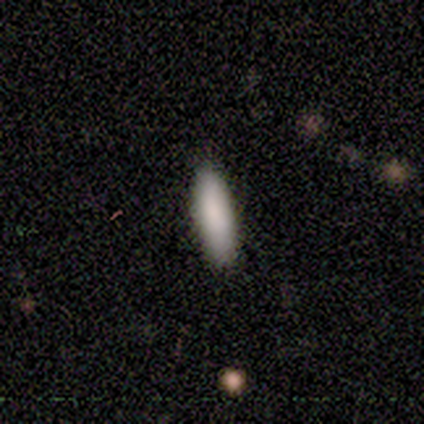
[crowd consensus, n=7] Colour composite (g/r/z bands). It shows a smooth galaxy with no disk features (100%) that is cigar-shaped (57%). Merging: none (100%).